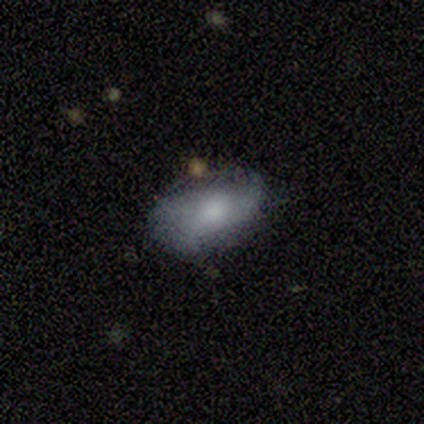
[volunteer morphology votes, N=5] Smooth or featured? smooth (100%)
How rounded? in between (80%)
Merging? none (100%)